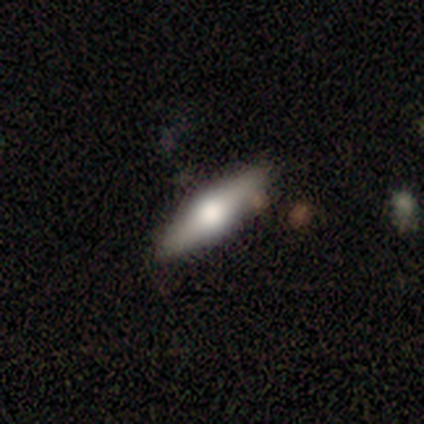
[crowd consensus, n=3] smooth_or_featured: featured or disk (p=1.00)
disk_edge_on: yes (p=0.67) [alt: no p=0.33]
edge_on_bulge: rounded (p=1.00)
merging: none (p=0.67) [alt: major disturbance p=0.33]